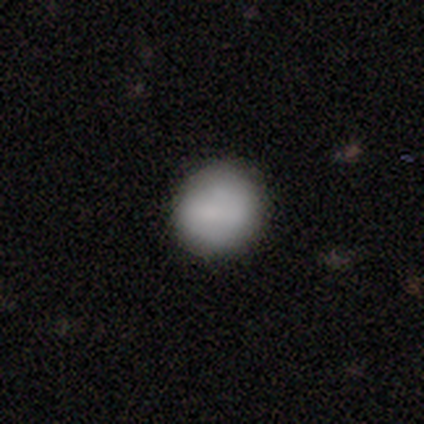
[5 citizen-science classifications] Smooth or featured?
  - smooth: 80% *
  - star or artifact: 20%
  - featured or disk: 0%
How rounded?
  - round: 75% *
  - in between: 25%
  - cigar-shaped: 0%
Merging?
  - none: 100% *
  - minor disturbance: 0%
  - major disturbance: 0%
  - merger: 0%